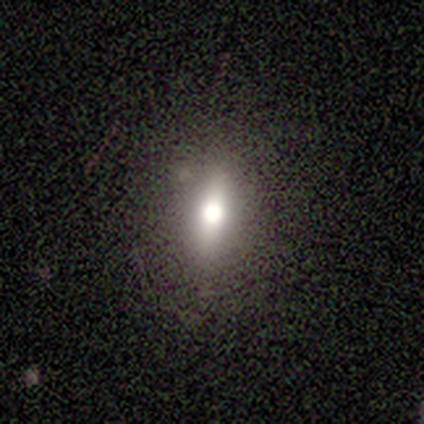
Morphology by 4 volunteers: smooth 75%, star or artifact 25%, featured or disk 0%. Down the decision tree: how rounded — in between (67%); merging — none (67%).